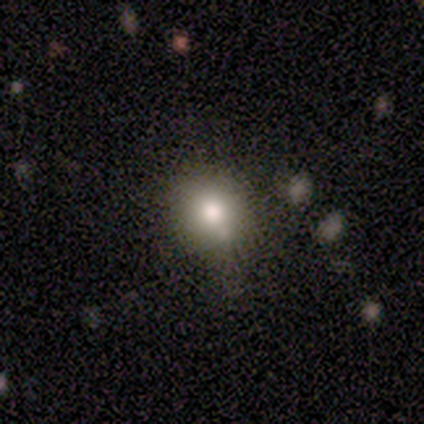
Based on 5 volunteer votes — Volunteers were most divided on "how rounded": round: 60%, in between: 40%, cigar-shaped: 0%. More confident: smooth or featured — smooth (100%); merging — none (80%).